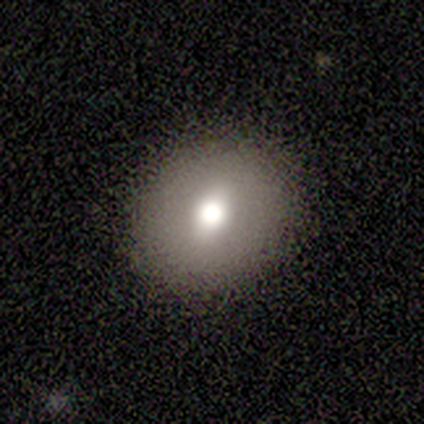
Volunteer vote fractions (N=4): smooth 50% (tied), featured or disk 50% (tied), star or artifact 0%. Down the decision tree: how rounded — round (50%, tied with in between); merging — none (75%).